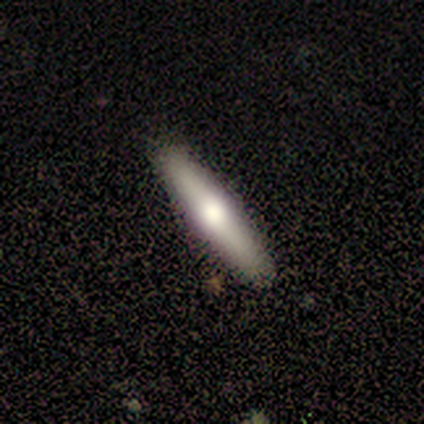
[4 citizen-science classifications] smooth_or_featured: smooth (p=0.75) [alt: featured or disk p=0.25]
how_rounded: cigar-shaped (p=1.00)
merging: none (p=1.00)